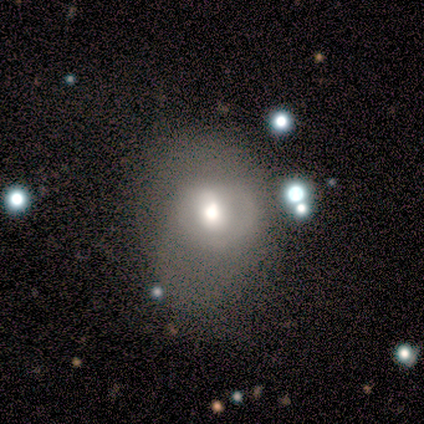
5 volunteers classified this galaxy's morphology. type=smooth (40%, tied with featured or disk); roundness=in between (100%); merging=minor disturbance (50%).